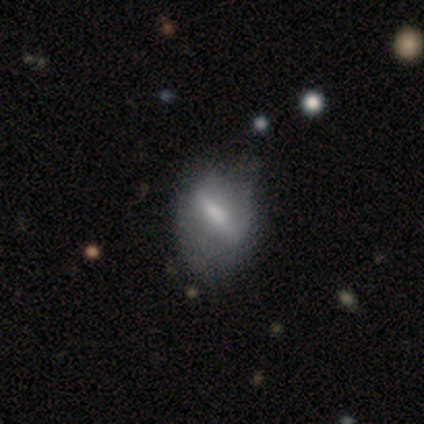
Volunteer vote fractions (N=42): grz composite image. It shows a featured or disk galaxy (62%) with a strong bar (62%), no spiral arms (71%) and no central bulge (38%). Merging: none (37%).